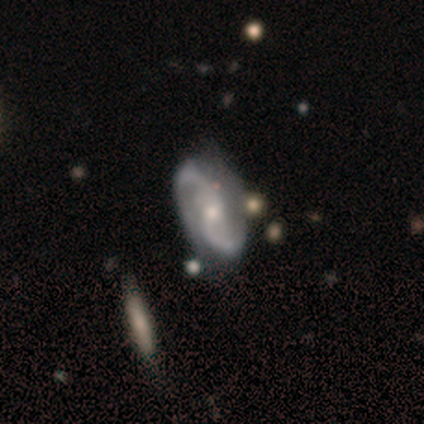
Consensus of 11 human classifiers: This is clearly a featured or disk galaxy (82%). It is clearly not viewed edge-on (100%). Bar: likely no (78%). Spiral arm pattern: clearly yes (89%). Spiral arm count: clearly 2 (88%). Spiral winding: likely medium (62%). Central bulge: possibly small (56%). Merging: possibly minor disturbance (56%).